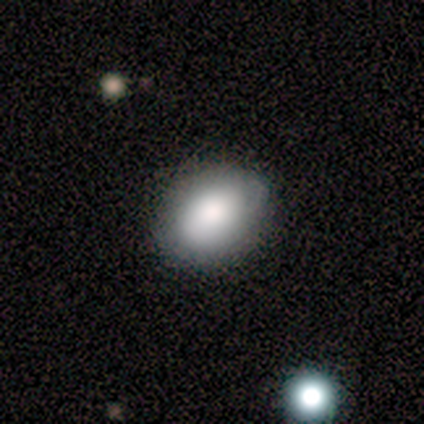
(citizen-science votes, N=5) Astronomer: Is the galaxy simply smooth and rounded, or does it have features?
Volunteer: smooth — 100%.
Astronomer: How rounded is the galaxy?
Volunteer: in between — 80%.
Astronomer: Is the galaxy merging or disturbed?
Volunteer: none — 100%.